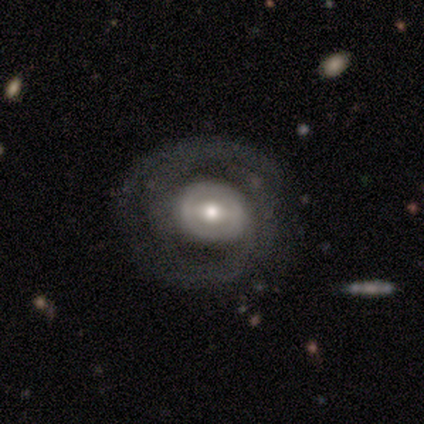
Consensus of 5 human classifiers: A featured or disk galaxy (60%) with a weak bar (67%), 2 (100%) medium (50%, tied with loose) spiral arms (67%) and a moderate central bulge (67%).

Vote fractions:
- Smooth or featured? featured or disk: 60% / smooth: 40% / star or artifact: 0%
- Edge-on disk? no: 100% / yes: 0%
- Bar? weak: 67% / strong: 33% / no: 0%
- Spiral arms? yes: 67% / no: 33%
- Spiral winding? medium: 50% (tied) / loose: 50% (tied) / tight: 0%
- Spiral arm count? 2: 100% / 1: 0% / 3: 0% / 4: 0% / more than 4: 0% / can't tell: 0%
- Bulge size? moderate: 67% / small: 33% / dominant: 0% / large: 0% / none: 0%
- Merging? none: 40% (tied) / minor disturbance: 40% (tied) / major disturbance: 20% / merger: 0%